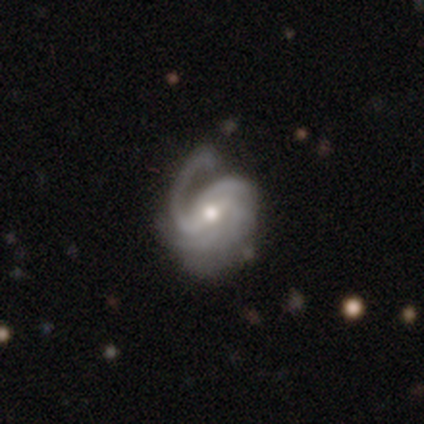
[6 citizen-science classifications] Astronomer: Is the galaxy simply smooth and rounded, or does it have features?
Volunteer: featured or disk — 100%.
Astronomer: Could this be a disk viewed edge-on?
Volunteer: no — 83%.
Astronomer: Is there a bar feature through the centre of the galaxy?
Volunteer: weak — 40%, tied with no at 40%.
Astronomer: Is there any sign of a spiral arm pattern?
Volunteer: yes — 100%.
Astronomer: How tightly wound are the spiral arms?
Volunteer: tight — 40%, tied with medium at 40%.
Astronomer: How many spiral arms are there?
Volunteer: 1 — 60%.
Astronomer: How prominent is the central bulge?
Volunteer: small — 60% (runner-up: moderate, 40%).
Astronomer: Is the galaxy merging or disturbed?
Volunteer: none — 50% (runner-up: minor disturbance, 33%).